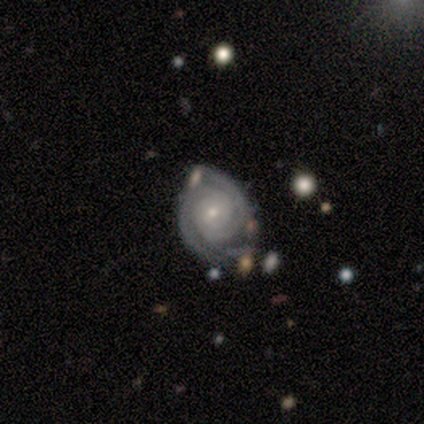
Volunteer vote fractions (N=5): Morphology: type=featured or disk (100%); edge-on=no (100%); bar=no (100%); spiral arms=yes (100%); winding=tight (100%); arm count=2 (60%); bulge=small (100%); merging=minor disturbance (60%).